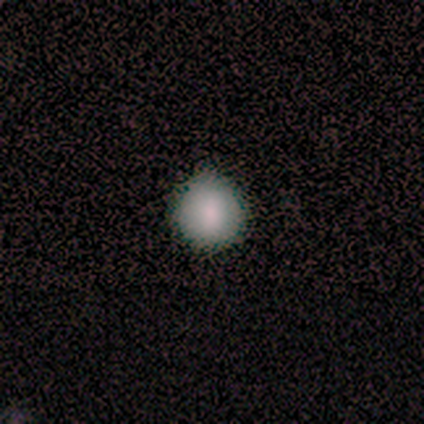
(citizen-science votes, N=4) Smooth or featured?
  - smooth: 75% *
  - featured or disk: 25%
  - star or artifact: 0%
How rounded?
  - round: 100% *
  - in between: 0%
  - cigar-shaped: 0%
Merging?
  - none: 100% *
  - minor disturbance: 0%
  - major disturbance: 0%
  - merger: 0%